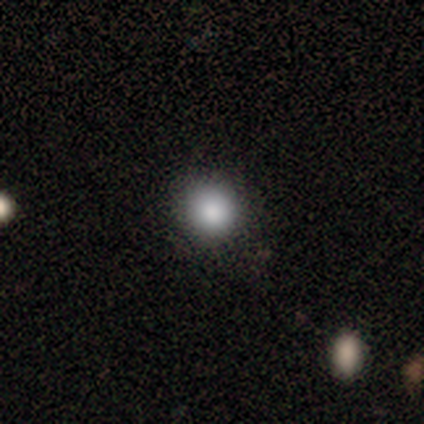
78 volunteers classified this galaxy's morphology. Overall: smooth (87%). How rounded: round (94%). Merging: none (46%; minor disturbance 7%).